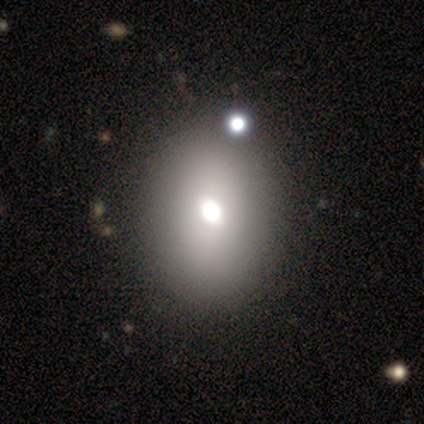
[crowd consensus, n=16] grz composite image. It shows a smooth galaxy with no disk features (94%) that is round (53%). Merging: none (62%).